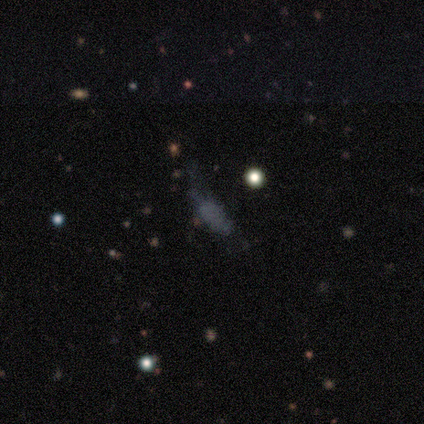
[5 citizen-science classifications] Q: Smooth or featured?
A: smooth (60%); runner-up: featured or disk (40%)
Q: How rounded?
A: in between (100%)
Q: Merging?
A: none (60%); runner-up: minor disturbance (20%)